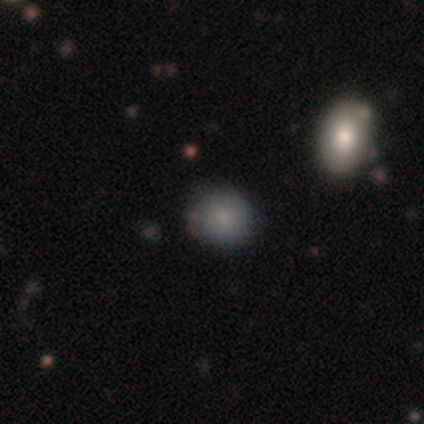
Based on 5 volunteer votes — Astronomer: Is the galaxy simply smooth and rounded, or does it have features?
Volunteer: smooth — 80%.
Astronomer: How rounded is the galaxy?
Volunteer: round — 100%.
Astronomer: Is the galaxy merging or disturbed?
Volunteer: none — 100%.